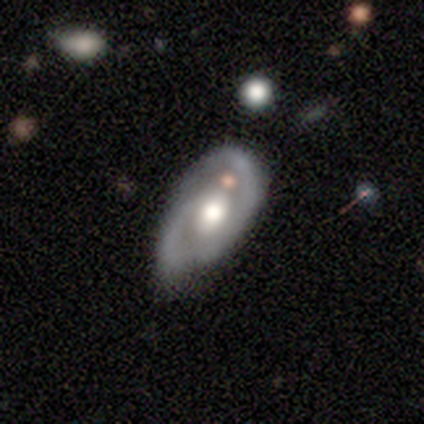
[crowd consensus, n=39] Smooth or featured? 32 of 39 (82%) said featured or disk. Edge-on disk? 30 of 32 (94%) said no. Bar? 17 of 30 (57%) said no. Spiral arms? 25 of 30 (83%) said yes. Spiral winding? 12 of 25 (48%, tied with medium) said tight. Spiral arm count? 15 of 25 (60%) said 2. Bulge size? 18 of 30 (60%) said moderate. Merging? 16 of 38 (42%) said none.